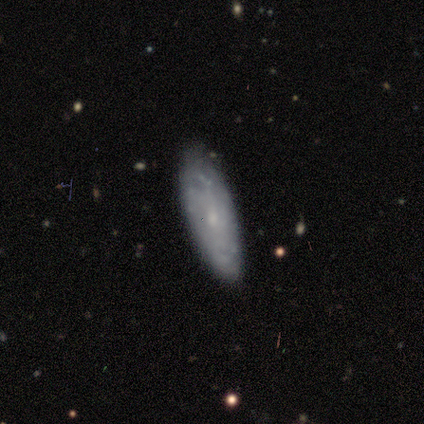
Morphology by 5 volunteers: A featured or disk galaxy (60%) with a weak bar (67%), 4 (33%, tied with more than 4 and can't tell) tight (67%) spiral arms (100%) and a small central bulge (67%). Merging: none (80%).